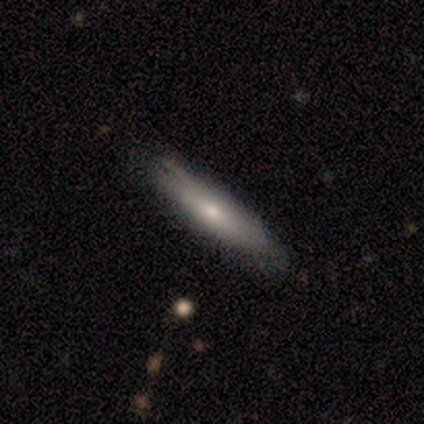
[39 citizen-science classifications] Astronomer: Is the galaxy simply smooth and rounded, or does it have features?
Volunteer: smooth — 64%.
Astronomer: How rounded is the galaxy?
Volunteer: cigar-shaped — 64%.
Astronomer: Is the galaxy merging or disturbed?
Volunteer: none — 55%.